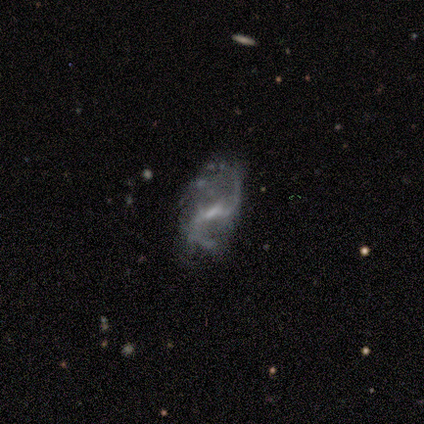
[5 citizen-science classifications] featured or disk 100%, smooth 0%, star or artifact 0%. Down the decision tree: edge-on disk — no (100%); bar — weak (60%); spiral arms — yes (80%); spiral arm count — 2 (100%); spiral winding — medium (50%, tied with loose); bulge size — small (60%); merging — none (60%).